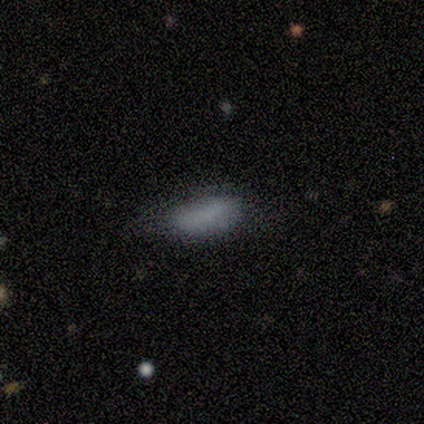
Morphology: type=smooth (67%); roundness=cigar-shaped (100%); merging=minor disturbance (50%, tied with major disturbance).